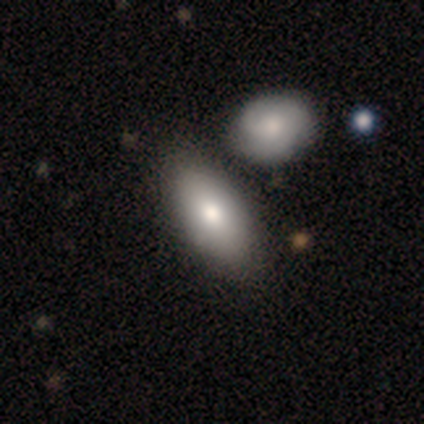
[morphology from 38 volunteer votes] Overall: smooth (87%). How rounded: in between (91%). Merging: none (61%).